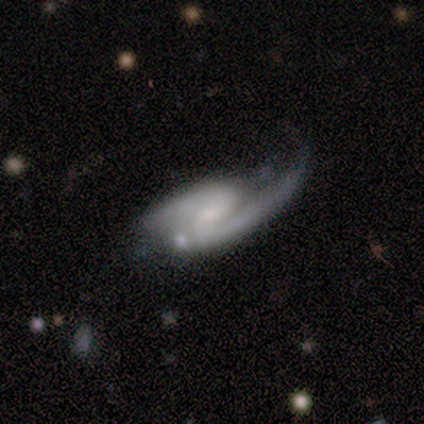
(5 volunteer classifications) smooth-or-featured: featured or disk: 100% | smooth: 0% | star or artifact: 0%
  disk-edge-on: no: 100% | yes: 0%
    bar: weak: 60% | strong: 40% | no: 0%
    has-spiral-arms: yes: 100% | no: 0%
      spiral-winding: loose: 60% | medium: 40% | tight: 0%
      spiral-arm-count: 2: 80% | 1: 20% | 3: 0% | 4: 0% | more than 4: 0% | can't tell: 0%
    bulge-size: small: 60% | moderate: 40% | dominant: 0% | large: 0% | none: 0%
  merging: major disturbance: 60% | none: 20% | minor disturbance: 20% | merger: 0%